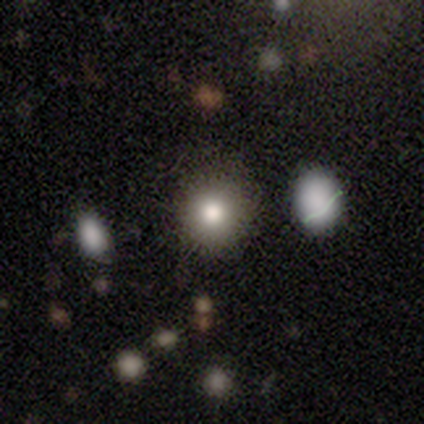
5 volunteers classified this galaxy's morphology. smooth 100%, featured or disk 0%, star or artifact 0%. Down the decision tree: how rounded — round (80%); merging — none (80%).